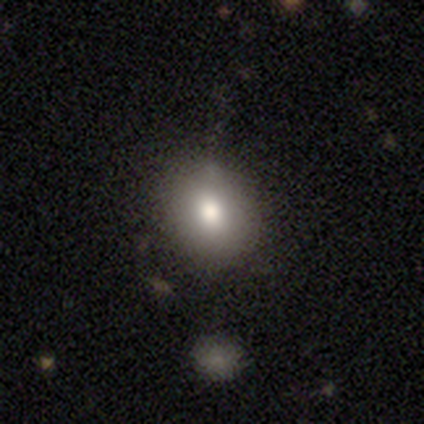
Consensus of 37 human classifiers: Smooth or featured?
  - smooth: 86% *
  - star or artifact: 11%
  - featured or disk: 3%
How rounded?
  - round: 62% *
  - in between: 38%
  - cigar-shaped: 0%
Merging?
  - none: 85% *
  - minor disturbance: 15%
  - major disturbance: 0%
  - merger: 0%